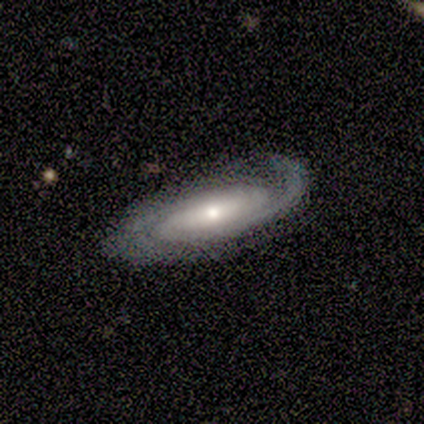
Morphology: type=featured or disk (100%); edge-on=no (100%); bar=strong (60%); spiral arms=yes (100%); winding=medium (60%); arm count=2 (80%); bulge=moderate (60%); merging=none (60%).